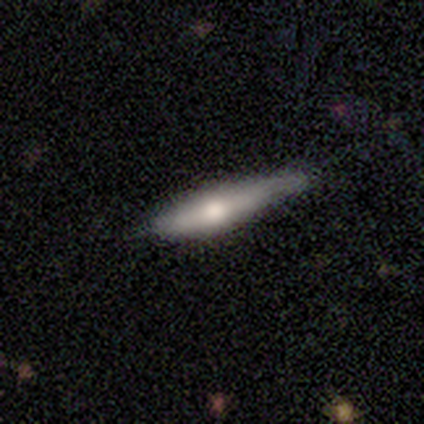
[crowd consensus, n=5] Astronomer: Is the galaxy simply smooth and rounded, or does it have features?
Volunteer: smooth — 40%, tied with featured or disk at 40%.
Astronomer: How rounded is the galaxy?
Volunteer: cigar-shaped — 100%.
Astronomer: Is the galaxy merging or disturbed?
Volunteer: minor disturbance — 75%.